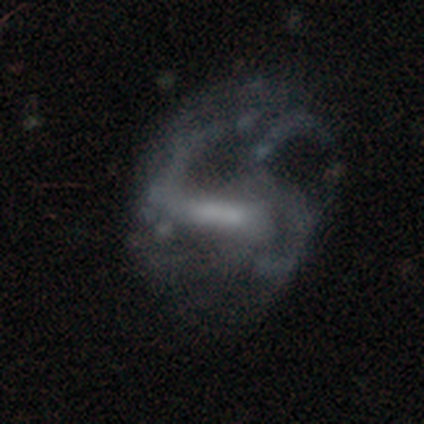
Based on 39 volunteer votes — Q: Smooth or featured?
A: featured or disk (72%); runner-up: smooth (21%)
Q: Edge-on disk?
A: no (93%); runner-up: yes (7%)
Q: Bar?
A: strong (50%); runner-up: weak (27%)
Q: Spiral arms?
A: yes (58%); runner-up: no (42%)
Q: Spiral winding?
A: medium (47%); tied with: loose (47%)
Q: Spiral arm count?
A: can't tell (40%); runner-up: 2 (27%)
Q: Bulge size?
A: none (35%); runner-up: moderate (31%)
Q: Merging?
A: major disturbance (50%); runner-up: none (22%)